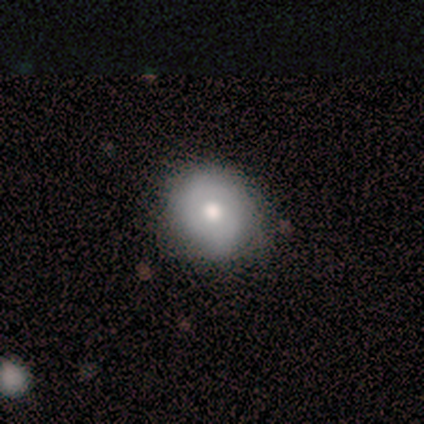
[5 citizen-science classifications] A smooth galaxy with no disk features (60%) that is round (67%).

Vote fractions:
- Smooth or featured? smooth: 60% / featured or disk: 40% / star or artifact: 0%
- How rounded? round: 67% / in between: 33% / cigar-shaped: 0%
- Merging? none: 80% / minor disturbance: 20% / major disturbance: 0% / merger: 0%